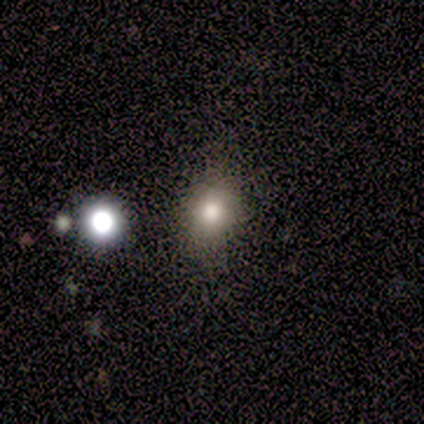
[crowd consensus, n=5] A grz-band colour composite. It shows a smooth galaxy with no disk features (60%) that is round (67%). Merging: none (100%).